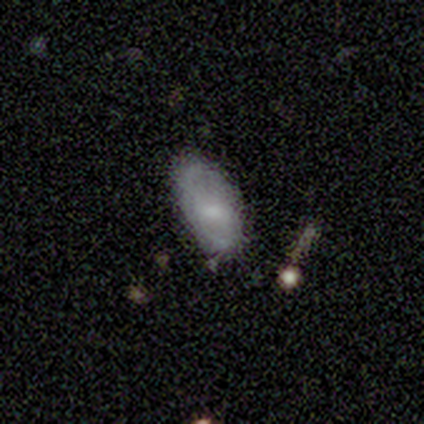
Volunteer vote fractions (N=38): smooth 63%, featured or disk 34%, star or artifact 3%. Down the decision tree: how rounded — in between (83%); merging — none (57%).